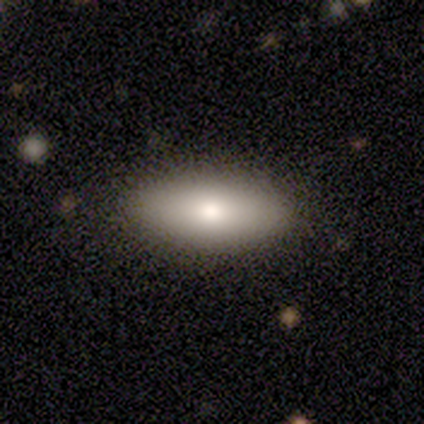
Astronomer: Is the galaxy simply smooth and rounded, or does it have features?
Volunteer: smooth — 100%.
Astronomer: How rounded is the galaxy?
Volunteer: in between — 75%.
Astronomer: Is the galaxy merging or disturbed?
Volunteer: none — 100%.